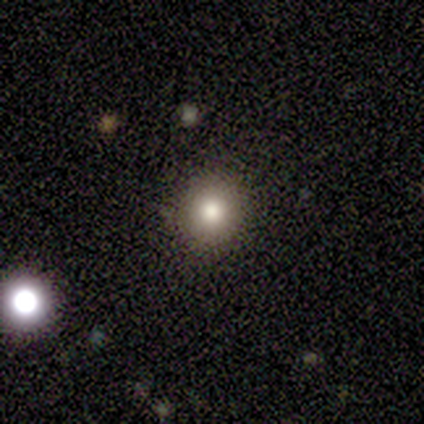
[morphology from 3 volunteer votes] This is clearly a smooth galaxy (100%). How rounded: clearly round (100%). Merging: clearly none (100%).